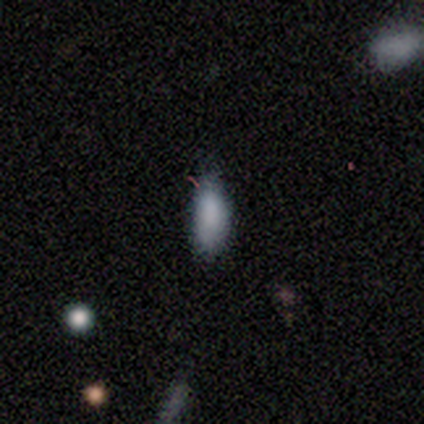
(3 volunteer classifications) smooth-or-featured: smooth: 67% | star or artifact: 33% | featured or disk: 0%
  how-rounded: in between: 100% | round: 0% | cigar-shaped: 0%
  merging: none: 100% | minor disturbance: 0% | major disturbance: 0% | merger: 0%